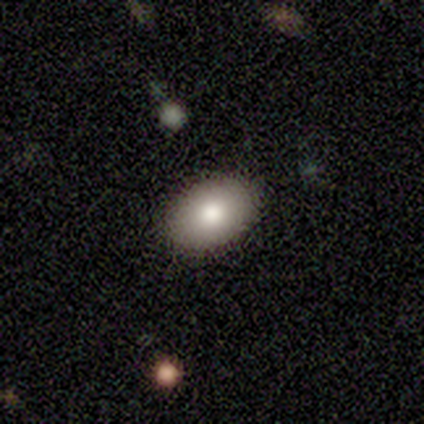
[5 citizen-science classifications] A smooth galaxy with no disk features (100%) that is in between round and cigar-shaped (100%).

Vote fractions:
- Smooth or featured? smooth: 100% / featured or disk: 0% / star or artifact: 0%
- How rounded? in between: 100% / round: 0% / cigar-shaped: 0%
- Merging? none: 100% / minor disturbance: 0% / major disturbance: 0% / merger: 0%